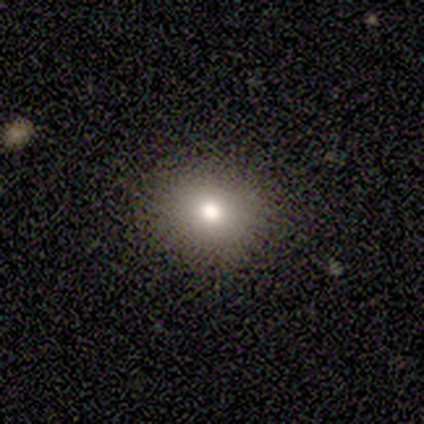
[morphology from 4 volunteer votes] Smooth or featured: smooth — 75% (star or artifact — 25%)
How rounded: round — 100%
Merging: none — 100%